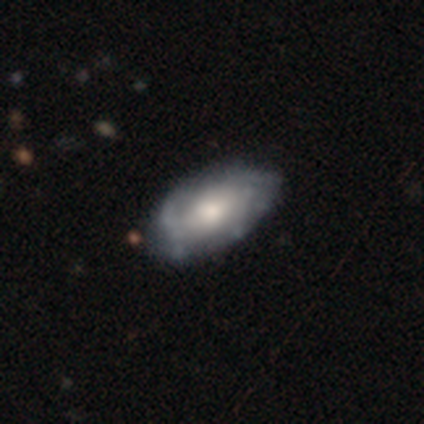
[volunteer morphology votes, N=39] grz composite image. It shows a featured or disk galaxy (79%) with no bar (71%), medium (47%) spiral arms (54%) and a moderate central bulge (64%). Merging: none (38%).